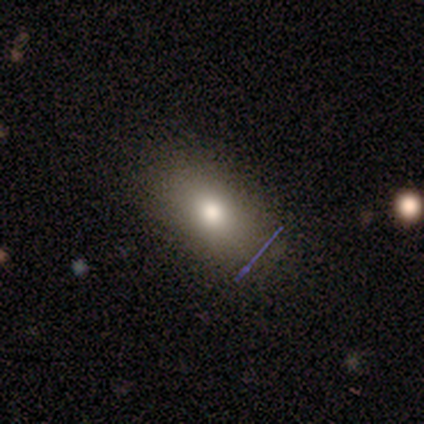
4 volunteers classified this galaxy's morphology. A smooth galaxy with no disk features (100%) that is in between round and cigar-shaped (75%). Merging: none (100%).